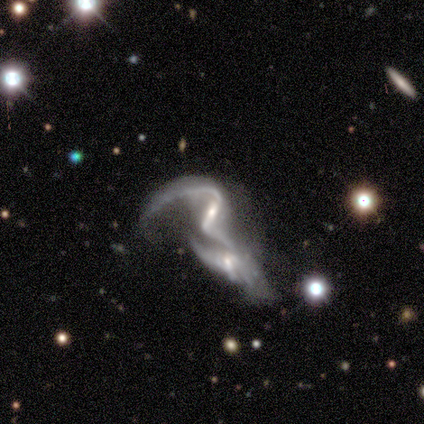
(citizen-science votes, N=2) smooth_or_featured: featured or disk (p=1.00)
disk_edge_on: no (p=1.00)
bar: strong (p=0.50) [tied with: weak p=0.50]
has_spiral_arms: yes (p=1.00)
spiral_winding: medium (p=0.50) [tied with: loose p=0.50]
spiral_arm_count: 2 (p=1.00)
bulge_size: moderate (p=0.50) [tied with: none p=0.50]
merging: none (p=0.50) [tied with: merger p=0.50]